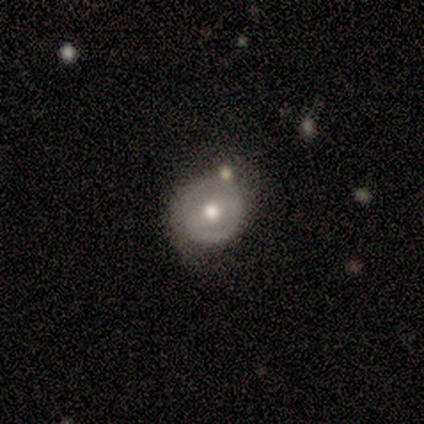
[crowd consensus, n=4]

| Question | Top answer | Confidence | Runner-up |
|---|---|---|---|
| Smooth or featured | smooth | 75% | featured or disk (25%) |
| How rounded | round | 100% | — |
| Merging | none | 100% | — |